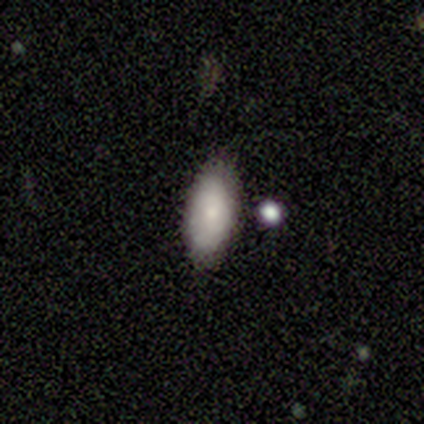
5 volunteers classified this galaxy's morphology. type=smooth (100%); roundness=in between (100%); merging=none (80%).